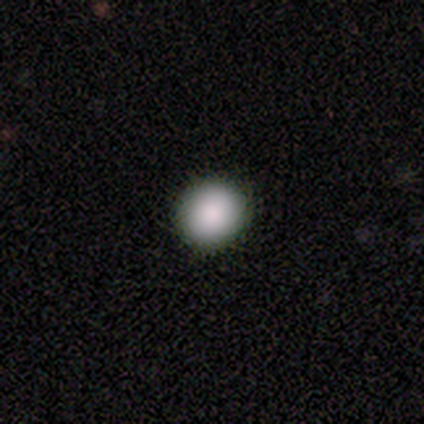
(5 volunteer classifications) smooth-or-featured: smooth: 80% | star or artifact: 20% | featured or disk: 0%
  how-rounded: round: 100% | in between: 0% | cigar-shaped: 0%
  merging: none: 100% | minor disturbance: 0% | major disturbance: 0% | merger: 0%